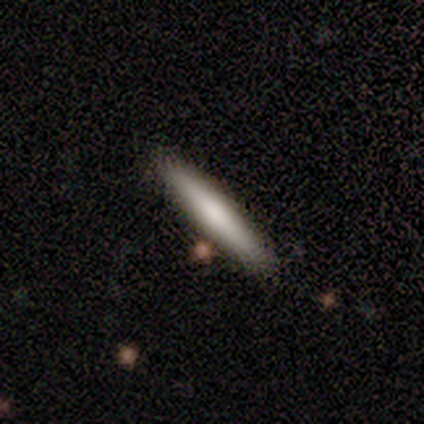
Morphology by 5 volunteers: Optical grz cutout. It shows a featured or disk galaxy (80%) viewed edge-on (100%) with no central bulge (75%). Merging: none (80%).